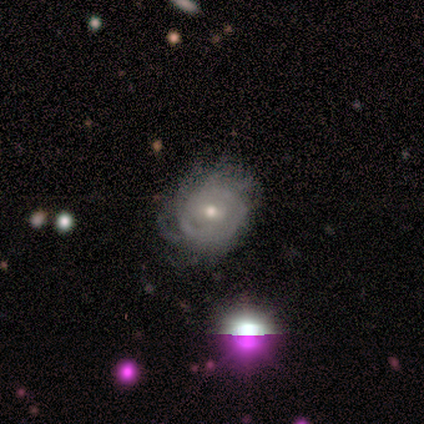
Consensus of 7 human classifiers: Volunteers were most divided on "bar" (2-way tie): weak: 50%, no: 50%, strong: 0%; "spiral winding" (2-way tie): tight: 50%, medium: 50%, loose: 0%; "spiral arm count" (4-way tie): 2: 25%, 4: 25%, more than 4: 25%, can't tell: 25%, 1: 0%, 3: 0%. More confident: edge-on disk — no (100%); smooth or featured — featured or disk (86%); bulge size — moderate (83%); spiral arms — yes (67%); merging — none (67%).